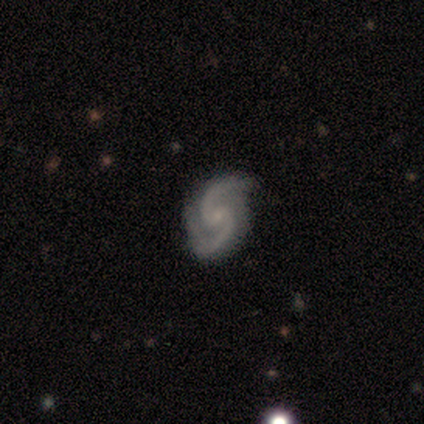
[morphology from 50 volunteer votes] smooth_or_featured: featured or disk (p=0.94) [alt: star or artifact p=0.04]
disk_edge_on: no (p=0.98) [alt: yes p=0.02]
bar: no (p=0.54) [alt: weak p=0.43]
has_spiral_arms: yes (p=1.00)
spiral_winding: medium (p=0.74) [alt: loose p=0.22]
spiral_arm_count: 2 (p=0.98) [alt: 3 p=0.02]
bulge_size: small (p=0.74) [alt: moderate p=0.17]
merging: none (p=0.73) [alt: minor disturbance p=0.15]